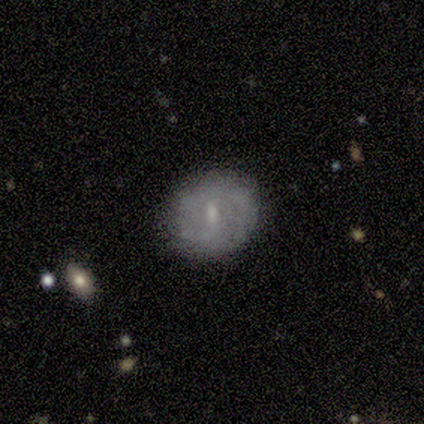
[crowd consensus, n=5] Smooth or featured: smooth — 100%
How rounded: round — 100%
Merging: none — 80% (minor disturbance — 20%)